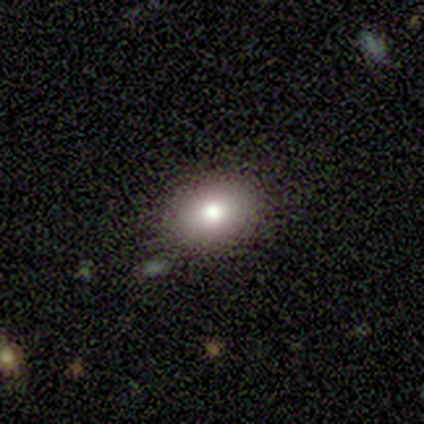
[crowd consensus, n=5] smooth_or_featured: smooth (p=0.60) [alt: featured or disk p=0.20]
how_rounded: in between (p=0.67) [alt: round p=0.33]
merging: none (p=1.00)